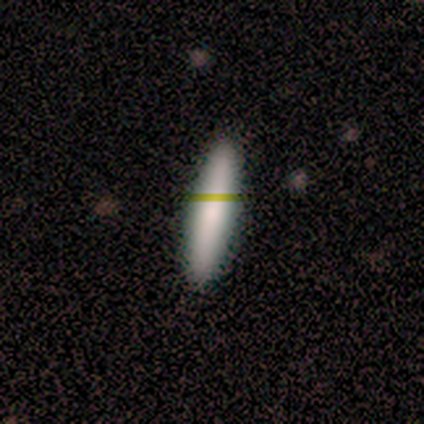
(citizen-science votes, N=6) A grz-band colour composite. It shows a smooth galaxy with no disk features (100%) that is cigar-shaped (67%). Merging: none (83%).